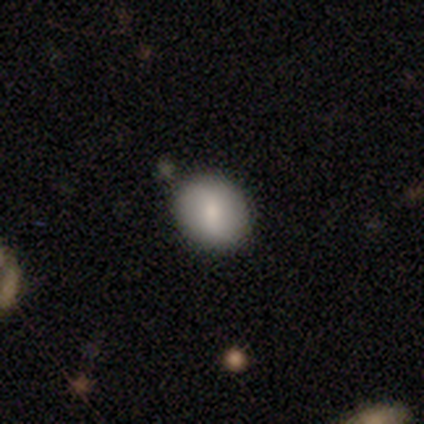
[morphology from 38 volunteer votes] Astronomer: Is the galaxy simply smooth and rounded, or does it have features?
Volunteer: smooth — 63%.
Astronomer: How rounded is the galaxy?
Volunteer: round — 67%.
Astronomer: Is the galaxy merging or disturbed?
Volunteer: none — 79%.